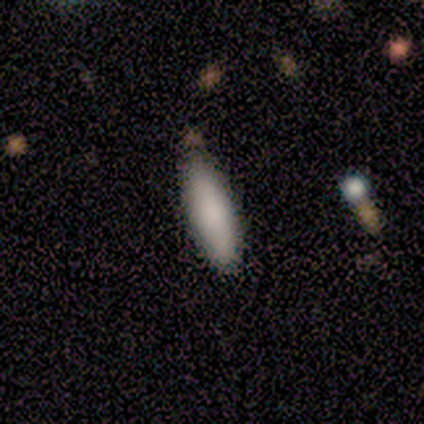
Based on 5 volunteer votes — This appears to be a smooth galaxy with no disk features (100%) that is cigar-shaped (80%). Merging: none (60%).